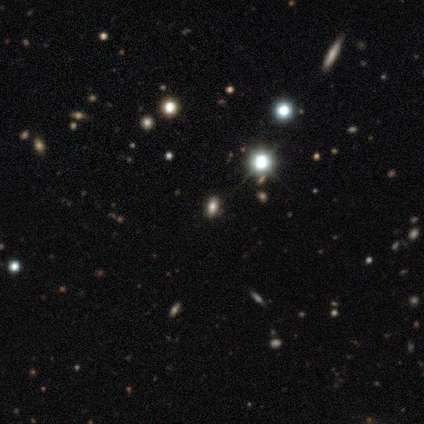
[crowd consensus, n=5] A star or artifact, not a galaxy (60%).